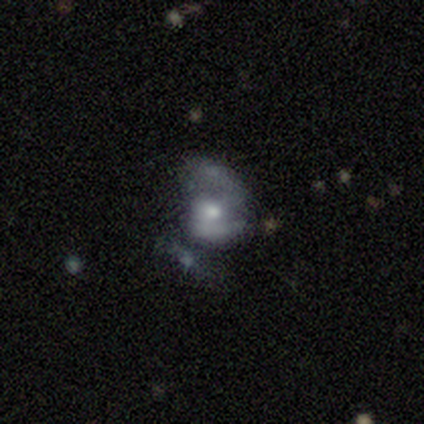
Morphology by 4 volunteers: smooth_or_featured: smooth (p=0.50) [tied with: featured or disk p=0.50]
how_rounded: in between (p=1.00)
merging: minor disturbance (p=0.50) [alt: major disturbance p=0.25]